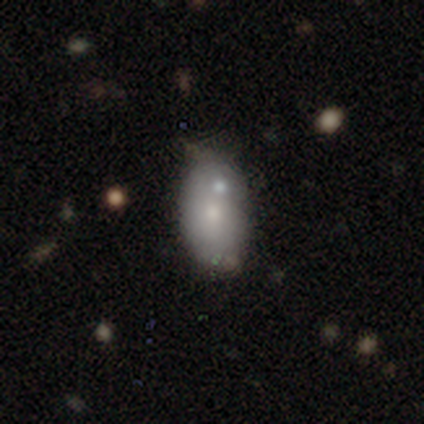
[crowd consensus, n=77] A smooth galaxy with no disk features (71%) that is in between round and cigar-shaped (91%).

Vote fractions:
- Smooth or featured? smooth: 71% / featured or disk: 22% / star or artifact: 6%
- How rounded? in between: 91% / round: 7% / cigar-shaped: 2%
- Merging? none: 29% / merger: 26% / minor disturbance: 11% / major disturbance: 4%